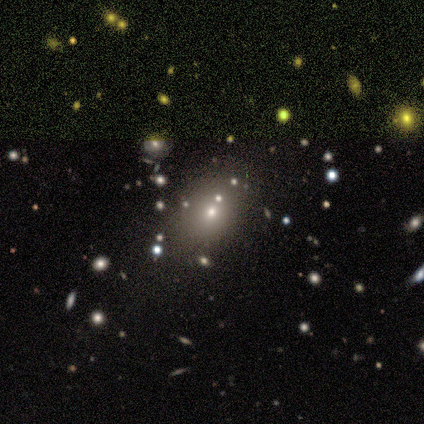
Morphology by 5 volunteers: Smooth or featured? 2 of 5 (40%, tied with featured or disk) said smooth. How rounded? 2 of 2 (100%) said in between. Merging? 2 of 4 (50%) said none.